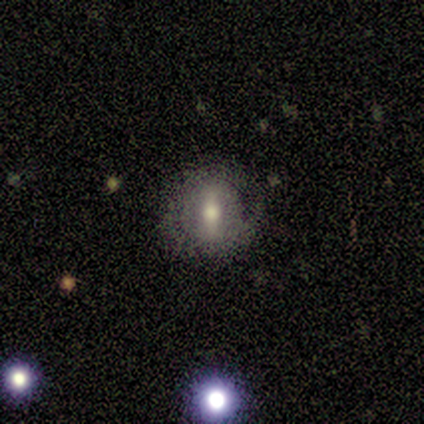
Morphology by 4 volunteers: This is likely a featured or disk galaxy (75%). It is clearly not viewed edge-on (100%). Bar: clearly strong (100%). Spiral arm pattern: likely no (67%). Central bulge: likely large (67%). Merging: likely none (75%).